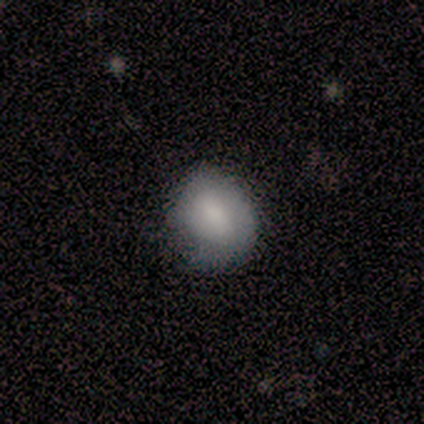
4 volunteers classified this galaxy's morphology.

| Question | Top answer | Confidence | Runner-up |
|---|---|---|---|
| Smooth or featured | smooth | 50% | tied: featured or disk (50%) |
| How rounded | round | 50% | tied: in between (50%) |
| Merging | none | 75% | major disturbance (25%) |